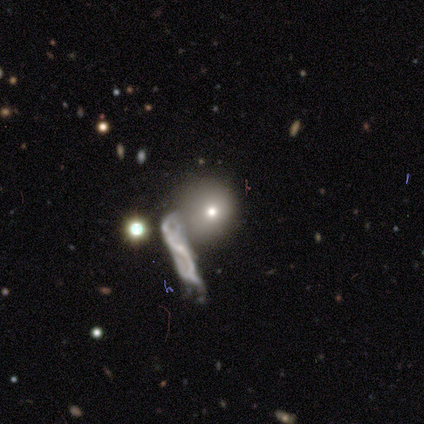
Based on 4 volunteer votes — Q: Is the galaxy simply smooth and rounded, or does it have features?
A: star or artifact — 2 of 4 (50%).